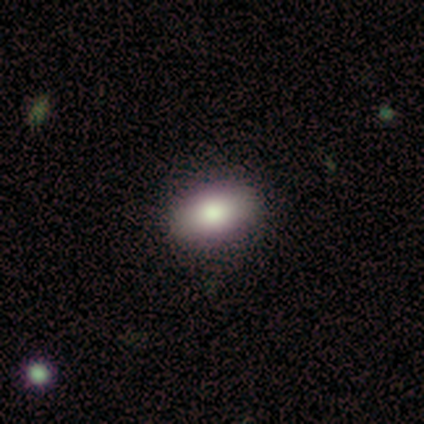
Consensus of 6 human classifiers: This is possibly a smooth galaxy (50%). How rounded: clearly in between (100%). Merging: likely none (75%).